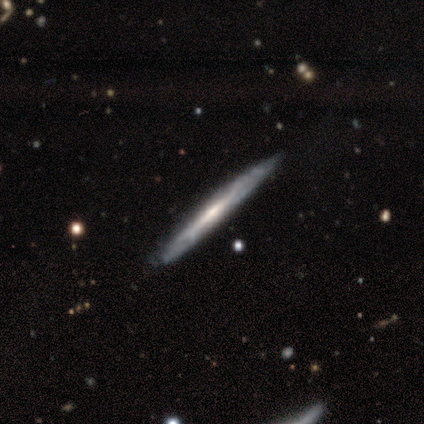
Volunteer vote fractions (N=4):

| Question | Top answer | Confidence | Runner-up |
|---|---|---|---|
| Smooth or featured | featured or disk | 75% | smooth (25%) |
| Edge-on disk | yes | 100% | — |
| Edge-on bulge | none | 67% | rounded (33%) |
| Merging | none | 100% | — |